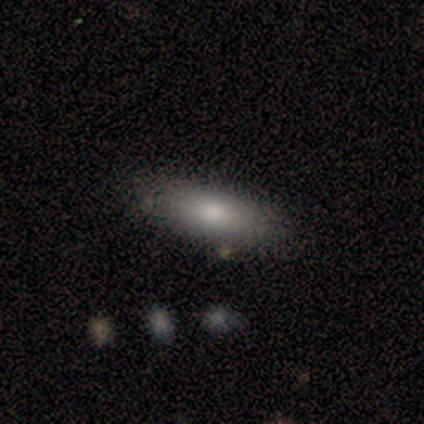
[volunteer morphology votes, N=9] Q: Smooth or featured?
A: smooth (78%); runner-up: featured or disk (22%)
Q: How rounded?
A: in between (71%); runner-up: cigar-shaped (29%)
Q: Merging?
A: none (67%); runner-up: minor disturbance (33%)